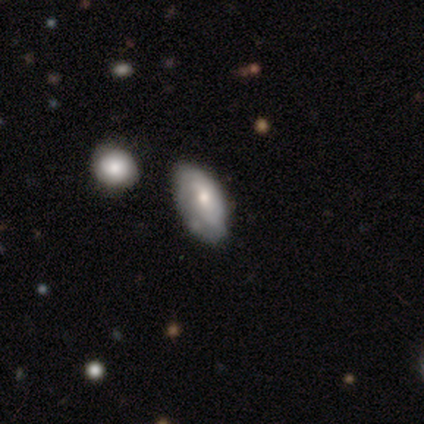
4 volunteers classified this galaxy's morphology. type=featured or disk (75%); edge-on=no (100%); bar=no (100%); spiral arms=yes (67%); winding=tight (100%); arm count=2 (50%, tied with can't tell); bulge=moderate (67%); merging=none (75%).